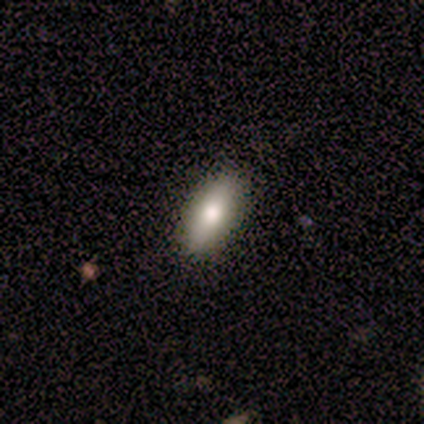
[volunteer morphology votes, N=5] smooth_or_featured: smooth (p=0.80) [alt: featured or disk p=0.20]
how_rounded: in between (p=1.00)
merging: none (p=0.80) [alt: minor disturbance p=0.20]